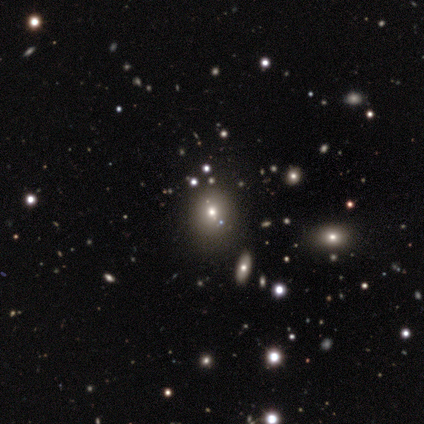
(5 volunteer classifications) This appears to be a featured or disk galaxy (60%) with no bar (100%), no spiral arms (100%) and a small central bulge (67%). Merging: none (80%).